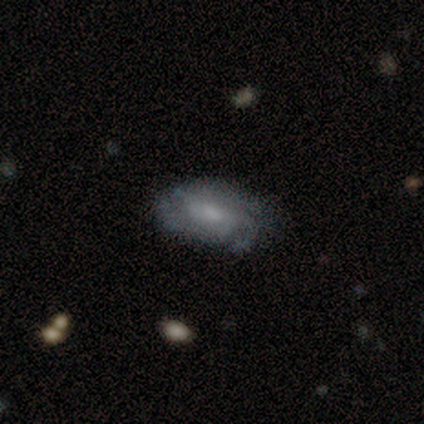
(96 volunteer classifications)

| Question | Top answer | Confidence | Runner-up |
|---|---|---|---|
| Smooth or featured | featured or disk | 69% | smooth (25%) |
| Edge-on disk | no | 97% | yes (3%) |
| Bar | no | 50% | weak (45%) |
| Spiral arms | yes | 86% | no (14%) |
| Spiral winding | medium | 49% | tight (38%) |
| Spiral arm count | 3 | 38% | can't tell (31%) |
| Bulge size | moderate | 42% | small (38%) |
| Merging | none | 67% | minor disturbance (24%) |